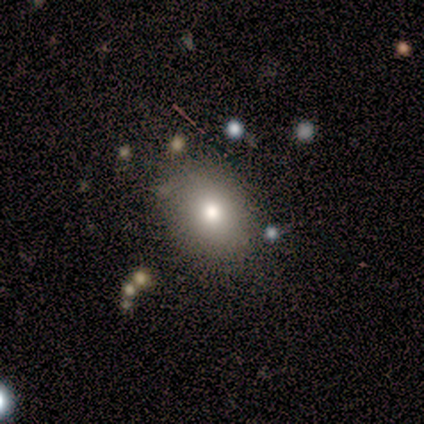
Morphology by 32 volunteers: A smooth galaxy with no disk features (69%) that is in between round and cigar-shaped (68%). Merging: none (85%).